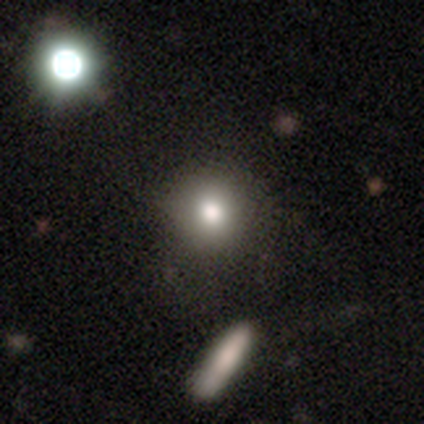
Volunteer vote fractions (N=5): Q: Smooth or featured?
A: smooth (80%); runner-up: star or artifact (20%)
Q: How rounded?
A: round (100%)
Q: Merging?
A: none (100%)